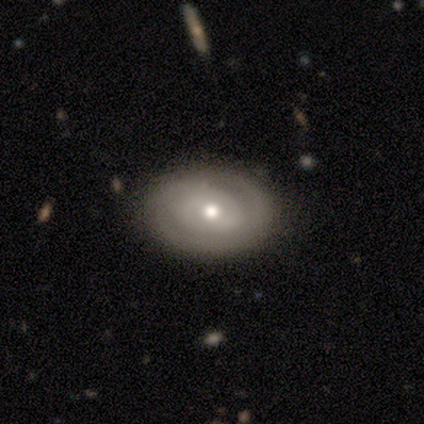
This appears to be a featured or disk galaxy (78%) with no bar (82%), 2 (42%) tight (84%) spiral arms (50%, tied with no) and a moderate central bulge (68%). Merging: none (89%).